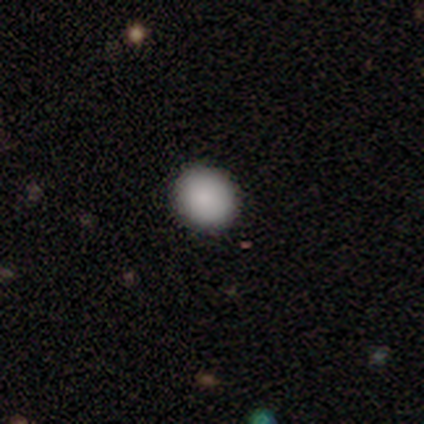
smooth 100%, featured or disk 0%, star or artifact 0%. Down the decision tree: how rounded — round (60%); merging — none (100%).